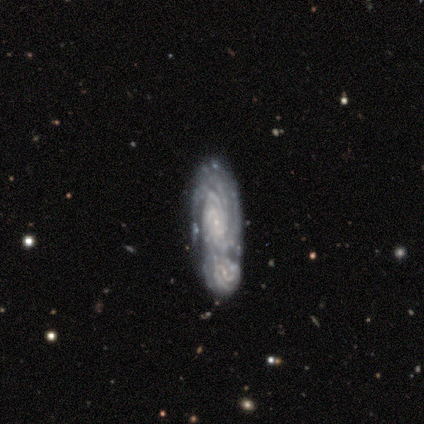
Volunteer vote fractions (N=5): Volunteers were most divided on "smooth or featured" (2-way tie): smooth: 40%, featured or disk: 40%, star or artifact: 20%; "how rounded" (2-way tie): round: 50%, cigar-shaped: 50%, in between: 0%. More confident: merging — none (50%).